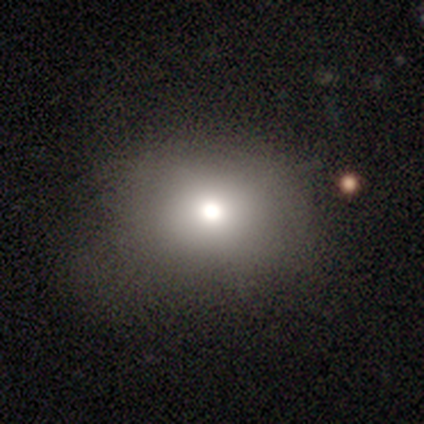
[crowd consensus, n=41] Smooth or featured?
  - smooth: 80% *
  - star or artifact: 12%
  - featured or disk: 7%
How rounded?
  - round: 58% *
  - in between: 42%
  - cigar-shaped: 0%
Merging?
  - none: 56% *
  - minor disturbance: 31%
  - major disturbance: 11%
  - merger: 3%